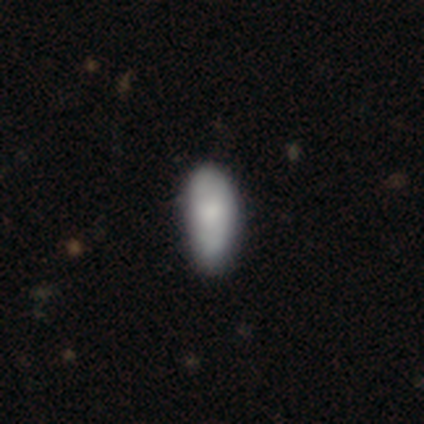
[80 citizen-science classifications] Smooth or featured? smooth (71%)
How rounded? in between (91%)
Merging? none (28%)